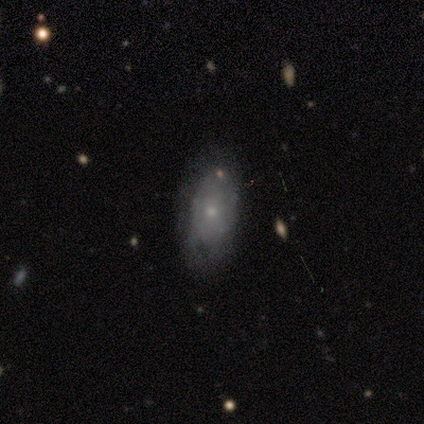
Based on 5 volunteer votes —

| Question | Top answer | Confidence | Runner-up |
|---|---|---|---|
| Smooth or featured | smooth | 60% | featured or disk (40%) |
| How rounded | in between | 100% | — |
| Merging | none | 80% | minor disturbance (20%) |